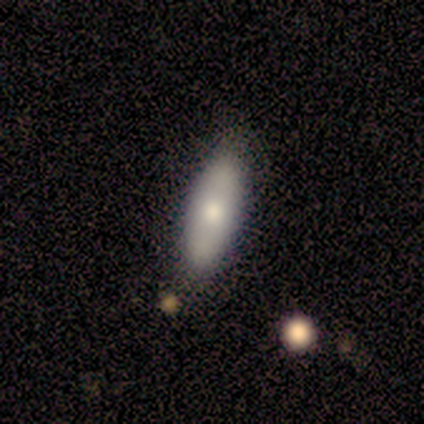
Smooth or featured? 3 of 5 (60%) said smooth. How rounded? 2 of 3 (67%) said cigar-shaped. Merging? 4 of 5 (80%) said none.